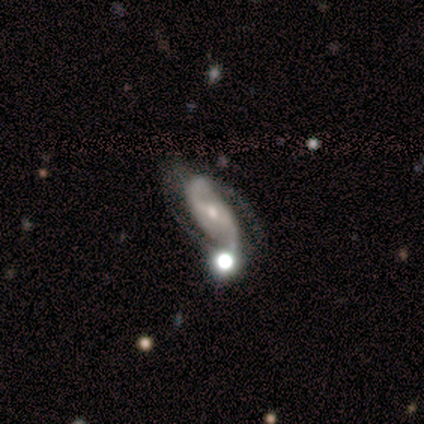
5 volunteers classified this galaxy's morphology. Smooth or featured: featured or disk — 100%
Edge-on disk: no — 100%
Bar: strong — 40% (tied with weak — 40%)
Spiral arms: yes — 100%
Spiral winding: medium — 60% (loose — 40%)
Spiral arm count: 2 — 80% (3 — 20%)
Bulge size: moderate — 60% (small — 40%)
Merging: none — 40% (tied with major disturbance — 40%)